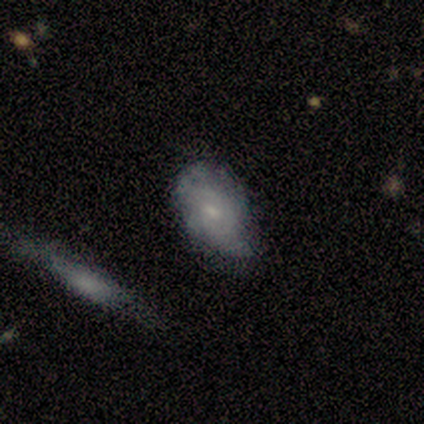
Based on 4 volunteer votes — Smooth or featured? smooth (50%, tied with featured or disk)
How rounded? in between (100%)
Merging? none (50%)